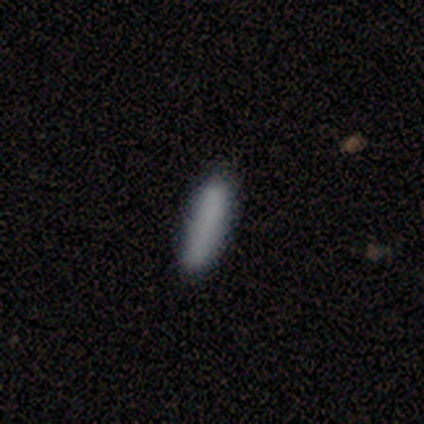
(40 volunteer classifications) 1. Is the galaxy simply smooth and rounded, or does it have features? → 92% smooth, 8% featured or disk, 0% star or artifact.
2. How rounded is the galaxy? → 89% cigar-shaped, 5% round, 5% in between.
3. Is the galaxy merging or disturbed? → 80% none, 10% minor disturbance, 10% merger, 0% major disturbance.